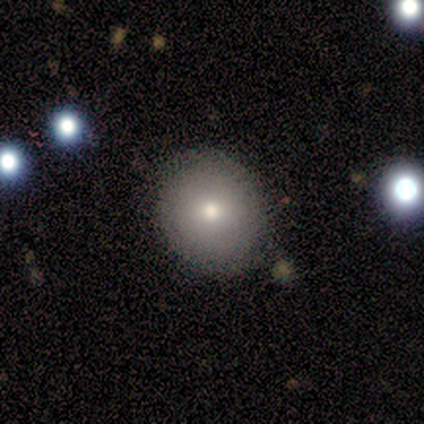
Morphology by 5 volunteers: Overall: smooth (40%, tied with featured or disk). How rounded: round (100%). Merging: none (100%).